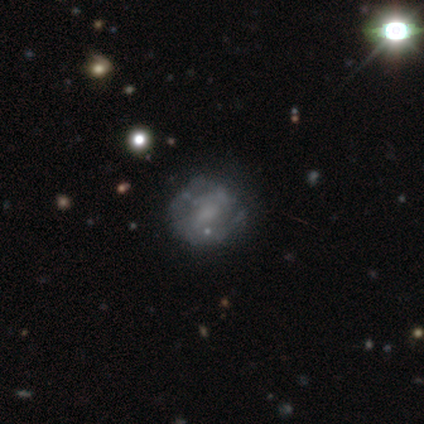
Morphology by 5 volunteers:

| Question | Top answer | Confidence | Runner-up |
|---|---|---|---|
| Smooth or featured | featured or disk | 100% | — |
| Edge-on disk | no | 100% | — |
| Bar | weak | 60% | no (40%) |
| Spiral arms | no | 60% | yes (40%) |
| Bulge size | none | 40% | large (20%) |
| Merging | major disturbance | 60% | none (40%) |